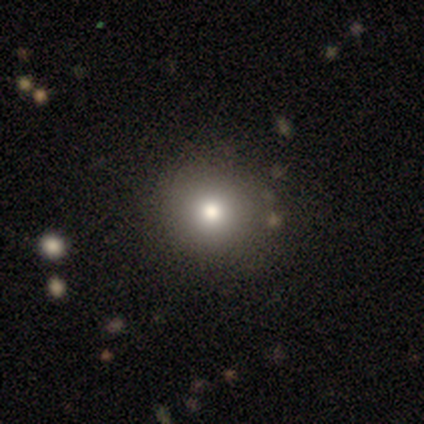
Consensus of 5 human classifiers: Smooth or featured: smooth — 100%
How rounded: round — 100%
Merging: none — 80% (minor disturbance — 20%)